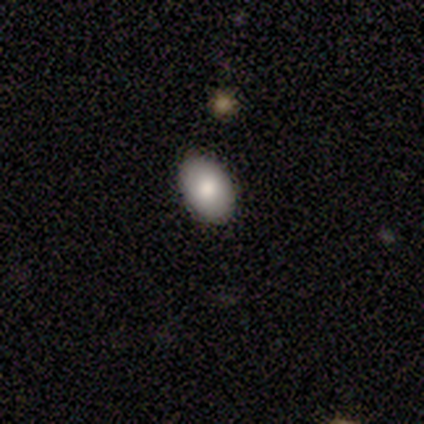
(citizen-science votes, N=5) This is clearly a smooth galaxy (100%). How rounded: clearly in between (100%). Merging: clearly none (80%).